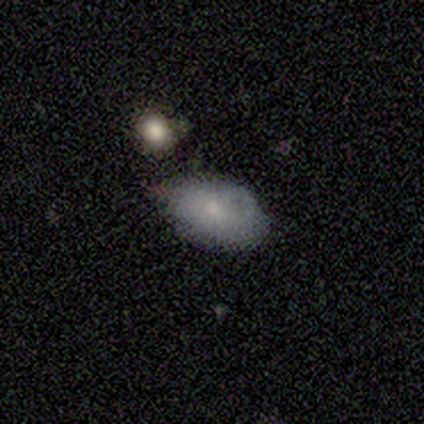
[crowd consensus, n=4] smooth-or-featured: featured or disk: 75% | smooth: 25% | star or artifact: 0%
  disk-edge-on: no: 100% | yes: 0%
    bar: no: 100% | strong: 0% | weak: 0%
    has-spiral-arms: no: 100% | yes: 0%
    bulge-size: small: 100% | dominant: 0% | large: 0% | moderate: 0% | none: 0%
  merging: none: 50% (tied) | minor disturbance: 50% (tied) | major disturbance: 0% | merger: 0%